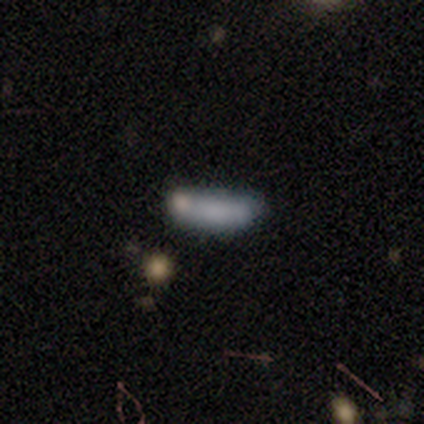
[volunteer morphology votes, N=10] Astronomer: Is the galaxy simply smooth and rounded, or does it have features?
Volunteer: smooth — 70%.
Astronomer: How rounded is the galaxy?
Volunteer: cigar-shaped — 57% (runner-up: in between, 43%).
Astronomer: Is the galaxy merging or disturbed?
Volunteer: none — 62%.